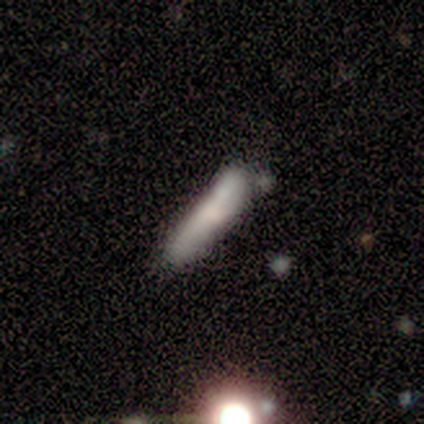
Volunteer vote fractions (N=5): A smooth galaxy with no disk features (80%) that is cigar-shaped (75%).

Vote fractions:
- Smooth or featured? smooth: 80% / featured or disk: 20% / star or artifact: 0%
- How rounded? cigar-shaped: 75% / in between: 25% / round: 0%
- Merging? minor disturbance: 60% / none: 40% / major disturbance: 0% / merger: 0%